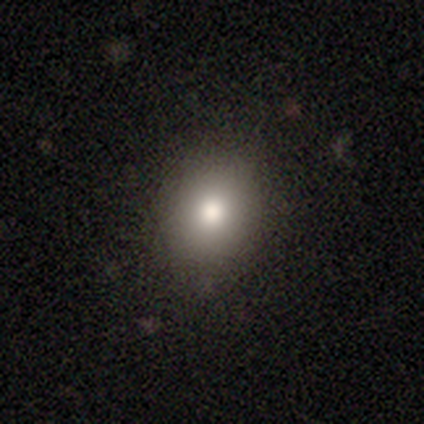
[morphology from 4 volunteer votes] Smooth or featured? smooth (50%)
How rounded? round (50%, tied with in between)
Merging? none (67%)